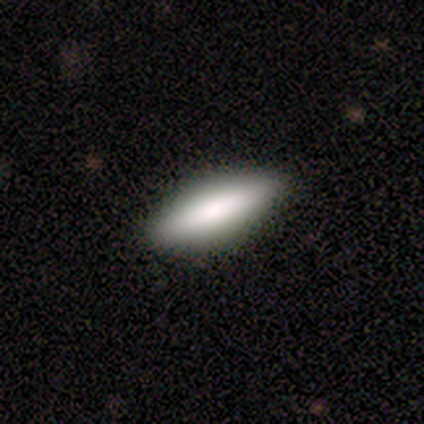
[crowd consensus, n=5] A smooth galaxy with no disk features (80%) that is in between round and cigar-shaped (50%, tied with cigar-shaped). Merging: none (100%).